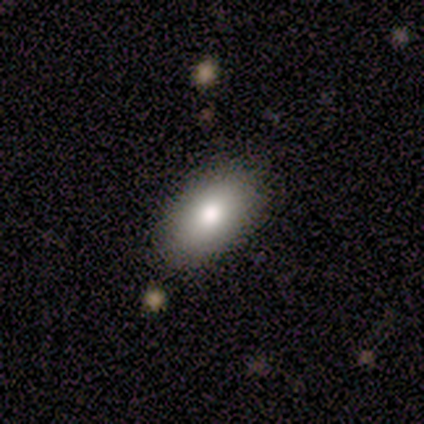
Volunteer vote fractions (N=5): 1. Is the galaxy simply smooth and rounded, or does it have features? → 80% smooth, 20% featured or disk, 0% star or artifact.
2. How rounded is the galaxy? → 100% in between, 0% round, 0% cigar-shaped.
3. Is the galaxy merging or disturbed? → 100% none, 0% minor disturbance, 0% major disturbance, 0% merger.